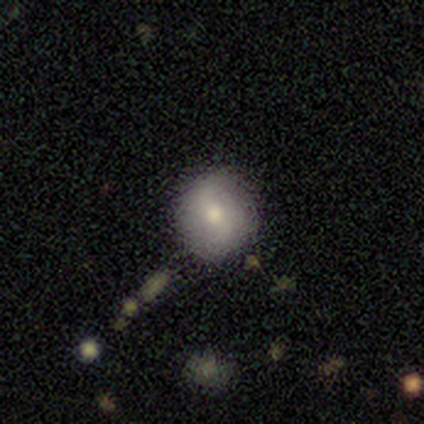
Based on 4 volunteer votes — This appears to be a smooth galaxy with no disk features (50%, tied with featured or disk) that is round (100%). Merging: none (100%).